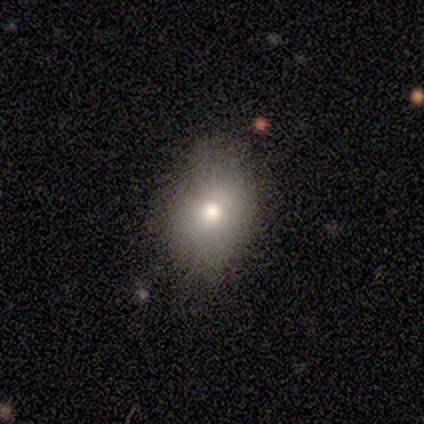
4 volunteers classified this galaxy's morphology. smooth_or_featured: smooth (p=1.00)
how_rounded: in between (p=1.00)
merging: none (p=0.75) [alt: minor disturbance p=0.25]